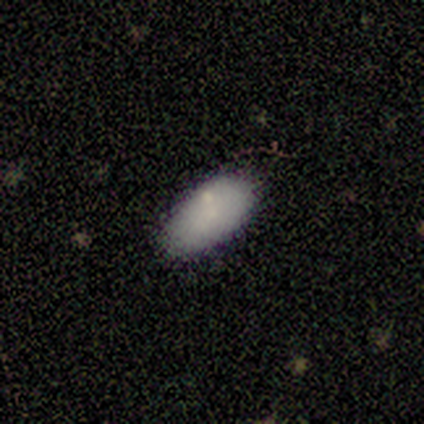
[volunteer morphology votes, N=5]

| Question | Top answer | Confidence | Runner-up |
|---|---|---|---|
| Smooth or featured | smooth | 100% | — |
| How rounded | in between | 100% | — |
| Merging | none | 80% | minor disturbance (20%) |